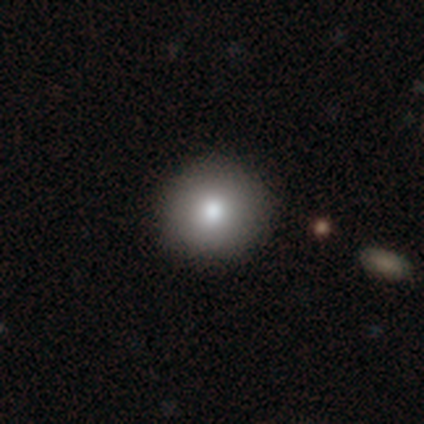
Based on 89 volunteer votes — Q: Smooth or featured?
A: smooth (83%); runner-up: star or artifact (9%)
Q: How rounded?
A: round (99%); runner-up: in between (1%)
Q: Merging?
A: none (93%); runner-up: minor disturbance (5%)